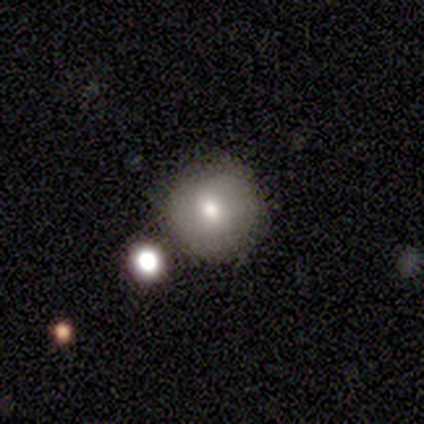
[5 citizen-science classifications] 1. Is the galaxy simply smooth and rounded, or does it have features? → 60% smooth, 20% featured or disk, 20% star or artifact.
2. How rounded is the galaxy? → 100% round, 0% in between, 0% cigar-shaped.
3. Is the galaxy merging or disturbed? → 100% none, 0% minor disturbance, 0% major disturbance, 0% merger.